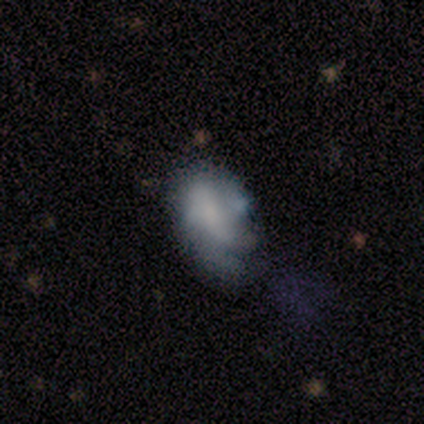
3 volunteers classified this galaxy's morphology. This appears to be a smooth galaxy with no disk features (67%) that is in between round and cigar-shaped (100%). Merging: minor disturbance (67%).